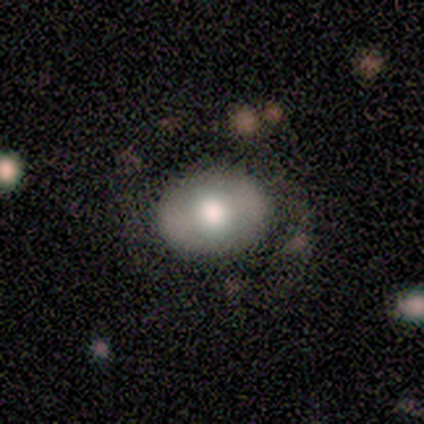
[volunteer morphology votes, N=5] Smooth or featured?
  - featured or disk: 60% *
  - smooth: 20%
  - star or artifact: 20%
Edge-on disk?
  - no: 100% *
  - yes: 0%
Bar?
  - no: 100% *
  - strong: 0%
  - weak: 0%
Spiral arms?
  - no: 100% *
  - yes: 0%
Bulge size?
  - moderate: 67% *
  - large: 33%
  - dominant: 0%
  - small: 0%
  - none: 0%
Merging?
  - none: 75% *
  - minor disturbance: 25%
  - major disturbance: 0%
  - merger: 0%